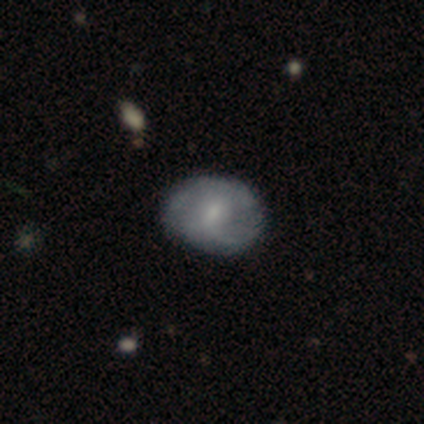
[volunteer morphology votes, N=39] smooth-or-featured: featured or disk: 56% | smooth: 38% | star or artifact: 5%
  disk-edge-on: no: 100% | yes: 0%
    bar: weak: 45% | no: 41% | strong: 14%
    has-spiral-arms: yes: 50% (tied) | no: 50% (tied)
      spiral-winding: tight: 64% | medium: 36% | loose: 0%
      spiral-arm-count: can't tell: 55% | 1: 27% | 2: 9% | more than 4: 9% | 3: 0% | 4: 0%
    bulge-size: small: 45% | moderate: 36% | none: 18% | dominant: 0% | large: 0%
  merging: none: 76% | minor disturbance: 22% | major disturbance: 3% | merger: 0%